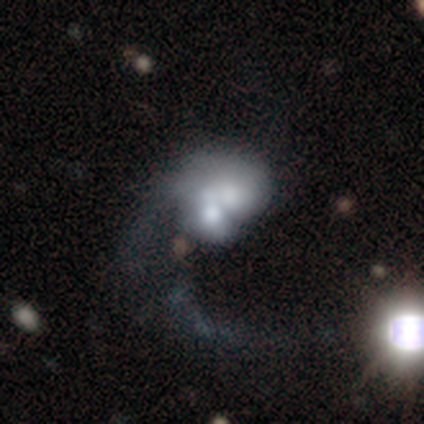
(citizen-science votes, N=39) Morphology: type=featured or disk (59%); edge-on=no (100%); bar=no (91%); spiral arms=no (70%); bulge=moderate (43%); merging=merger (63%).